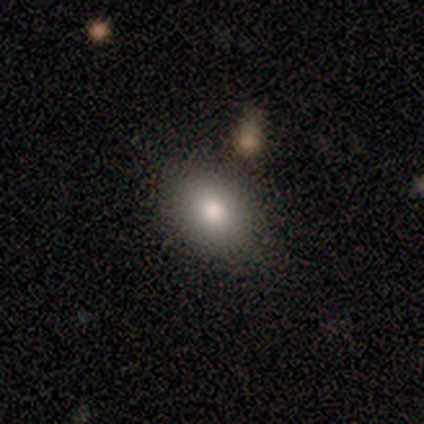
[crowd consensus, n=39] smooth_or_featured: smooth (p=0.82) [alt: featured or disk p=0.13]
how_rounded: in between (p=0.69) [alt: round p=0.28]
merging: none (p=0.76) [alt: minor disturbance p=0.14]